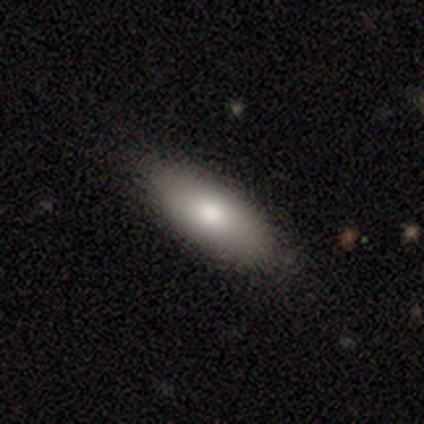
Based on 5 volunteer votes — A smooth galaxy with no disk features (100%) that is in between round and cigar-shaped (60%). Merging: none (100%).